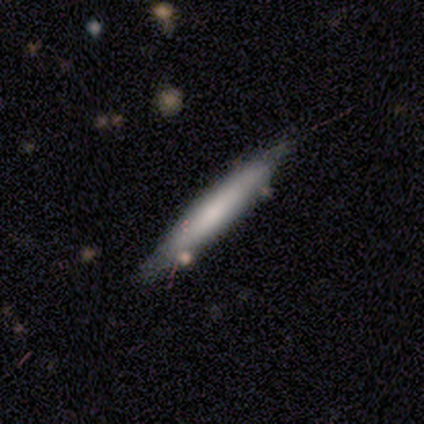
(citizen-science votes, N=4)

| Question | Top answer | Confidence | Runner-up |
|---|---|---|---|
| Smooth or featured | featured or disk | 75% | star or artifact (25%) |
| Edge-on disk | yes | 67% | no (33%) |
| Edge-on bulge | boxy | 50% | tied: none (50%) |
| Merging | minor disturbance | 67% | merger (33%) |